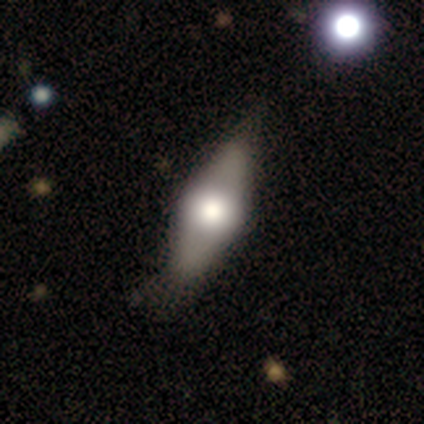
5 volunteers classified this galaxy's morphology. smooth-or-featured: smooth: 60% | featured or disk: 20% | star or artifact: 20%
  how-rounded: in between: 100% | round: 0% | cigar-shaped: 0%
  merging: minor disturbance: 50% | none: 25% | major disturbance: 25% | merger: 0%